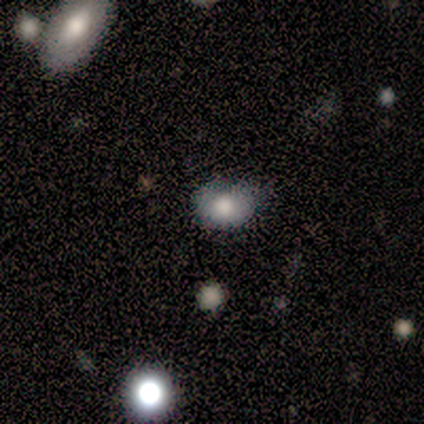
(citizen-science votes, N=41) Q: Smooth or featured?
A: smooth (88%); runner-up: featured or disk (7%)
Q: How rounded?
A: in between (61%); runner-up: round (39%)
Q: Merging?
A: none (72%); runner-up: minor disturbance (21%)